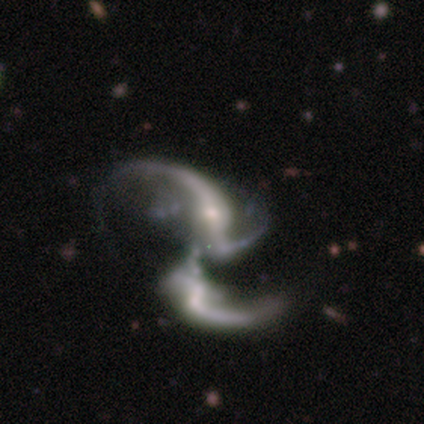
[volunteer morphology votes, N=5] Overall: featured or disk (80%). Edge-on disk: no (75%). Bar: strong (33%, tied with weak and no). Spiral arms: yes (100%). Spiral arm count: 3 (100%). Spiral winding: loose (100%). Bulge size: small (100%). Merging: merger (80%).